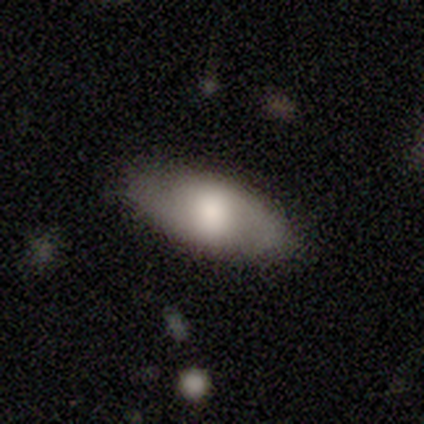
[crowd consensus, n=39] smooth 72%, featured or disk 18%, star or artifact 10%. Down the decision tree: how rounded — in between (96%); merging — none (83%).